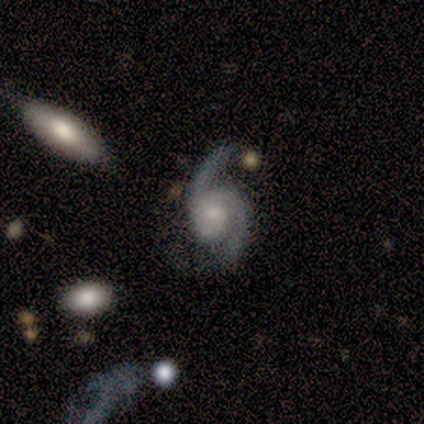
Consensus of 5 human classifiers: This appears to be a featured or disk galaxy (80%) with a weak bar (50%, tied with no), 2 (75%) medium (50%) spiral arms (100%) and a dominant central bulge (25%, tied with moderate, small and none). Merging: none (80%).